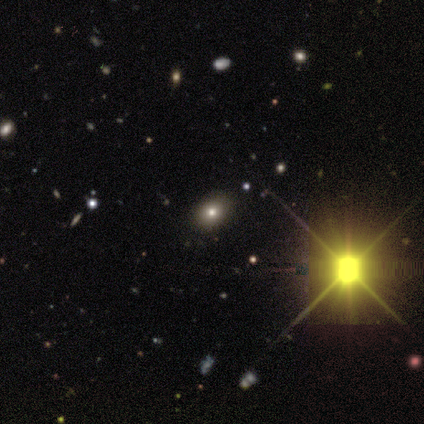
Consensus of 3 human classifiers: Smooth or featured? 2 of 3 (67%) said star or artifact.